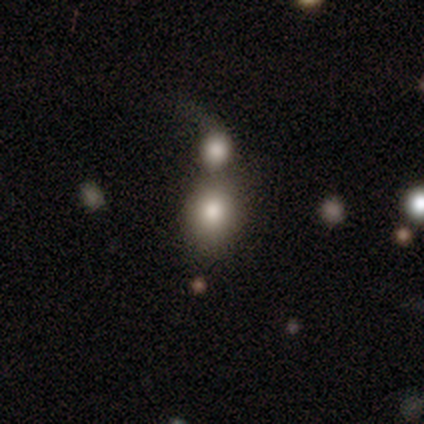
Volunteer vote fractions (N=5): Q: Smooth or featured?
A: smooth (80%); runner-up: featured or disk (20%)
Q: How rounded?
A: round (50%); tied with: in between (50%)
Q: Merging?
A: merger (80%); runner-up: major disturbance (20%)